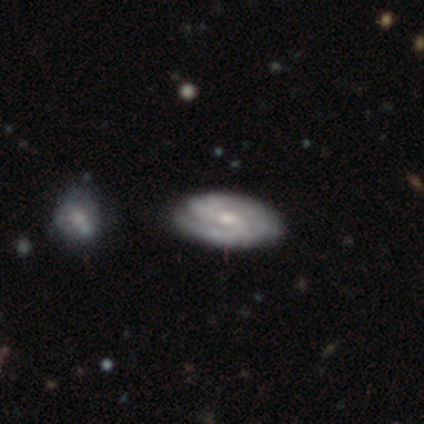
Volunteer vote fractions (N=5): smooth-or-featured: featured or disk: 60% | smooth: 40% | star or artifact: 0%
  disk-edge-on: yes: 67% | no: 33%
    edge-on-bulge: rounded: 100% | boxy: 0% | none: 0%
  merging: none: 80% | minor disturbance: 20% | major disturbance: 0% | merger: 0%